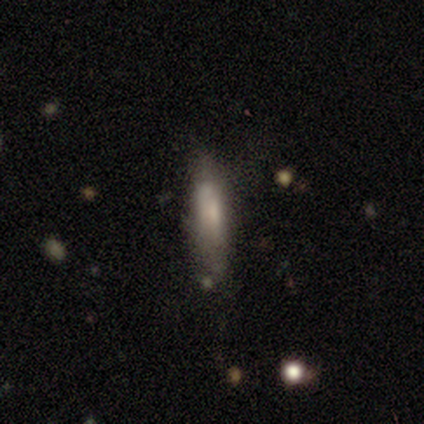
A featured or disk galaxy (80%) viewed edge-on (75%) with a rounded central bulge (67%).

Vote fractions:
- Smooth or featured? featured or disk: 80% / smooth: 20% / star or artifact: 0%
- Edge-on disk? yes: 75% / no: 25%
- Edge-on bulge? rounded: 67% / boxy: 33% / none: 0%
- Merging? minor disturbance: 60% / none: 40% / major disturbance: 0% / merger: 0%